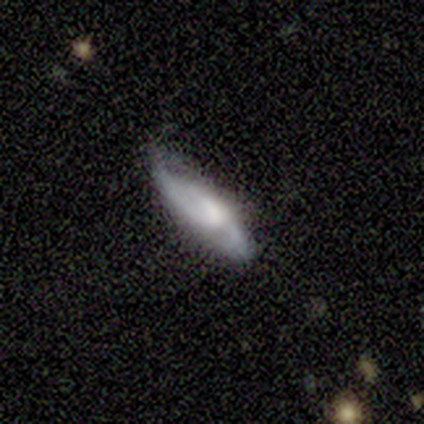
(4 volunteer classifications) smooth-or-featured: smooth: 50% (tied) | featured or disk: 50% (tied) | star or artifact: 0%
  how-rounded: cigar-shaped: 100% | round: 0% | in between: 0%
  merging: minor disturbance: 50% | none: 25% | major disturbance: 25% | merger: 0%